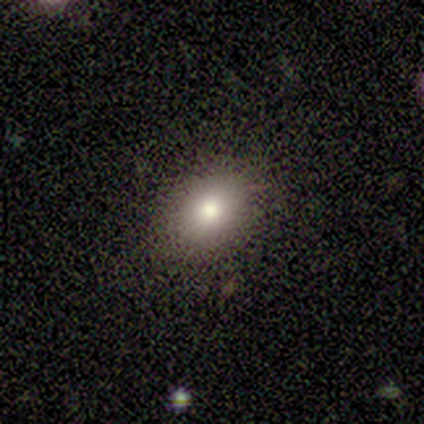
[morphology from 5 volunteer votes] Smooth or featured: smooth — 100%
How rounded: in between — 80% (round — 20%)
Merging: none — 100%